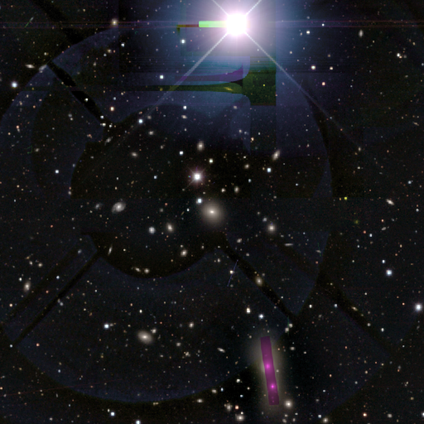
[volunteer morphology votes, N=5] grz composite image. It shows a star or artifact, not a galaxy (80%).